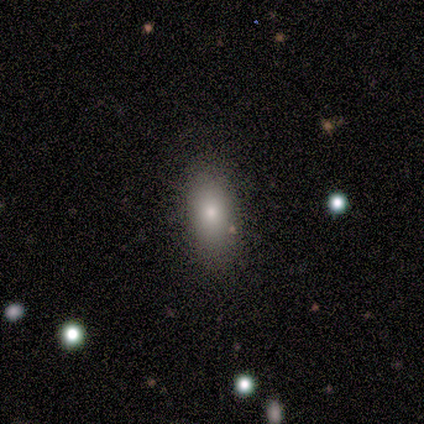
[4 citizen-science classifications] This appears to be a smooth galaxy with no disk features (100%) that is in between round and cigar-shaped (100%). Merging: none (100%).